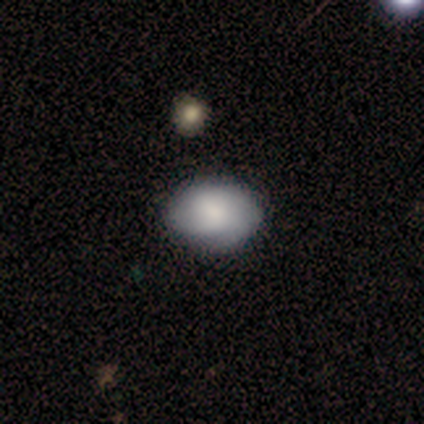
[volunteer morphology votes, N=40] smooth 68%, featured or disk 30%, star or artifact 2%. Down the decision tree: how rounded — in between (78%); merging — none (46%).